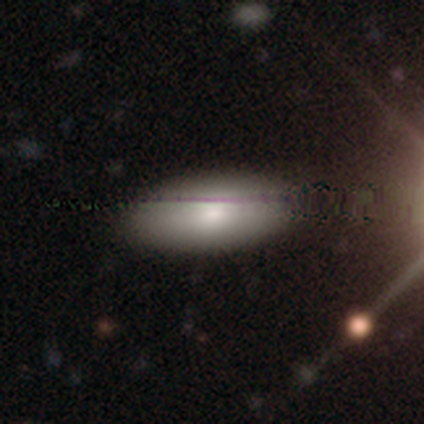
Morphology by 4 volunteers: smooth-or-featured: smooth: 75% | featured or disk: 25% | star or artifact: 0%
  how-rounded: in between: 100% | round: 0% | cigar-shaped: 0%
  merging: none: 75% | major disturbance: 25% | minor disturbance: 0% | merger: 0%